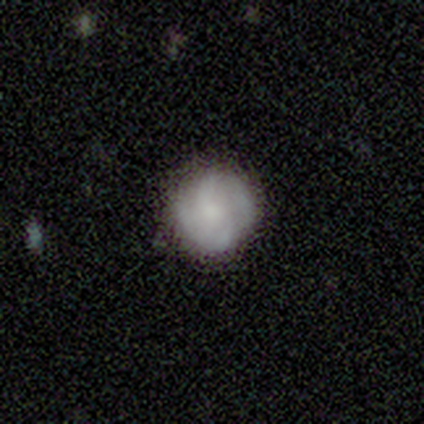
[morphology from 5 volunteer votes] smooth_or_featured: smooth (p=0.80) [alt: featured or disk p=0.20]
how_rounded: round (p=1.00)
merging: none (p=0.60) [alt: minor disturbance p=0.40]